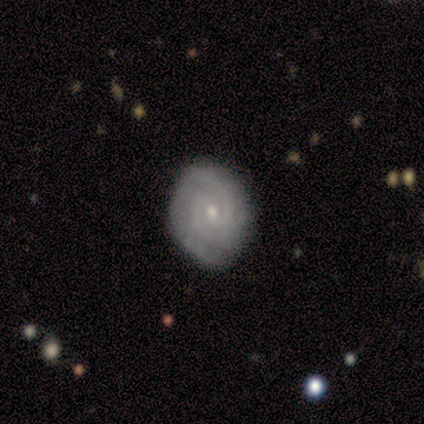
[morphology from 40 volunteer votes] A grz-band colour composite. It shows a featured or disk galaxy (82%) with no bar (56%), 2 (70%) tight (63%) spiral arms (94%) and a small central bulge (56%). Merging: none (86%).